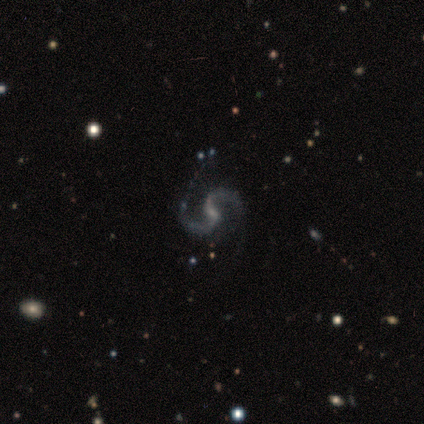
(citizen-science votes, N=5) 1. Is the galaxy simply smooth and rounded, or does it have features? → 80% featured or disk, 20% star or artifact, 0% smooth.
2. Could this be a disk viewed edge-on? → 75% no, 25% yes.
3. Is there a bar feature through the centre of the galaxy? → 67% weak, 33% no, 0% strong.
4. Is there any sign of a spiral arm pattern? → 100% yes, 0% no.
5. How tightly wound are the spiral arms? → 100% medium, 0% tight, 0% loose.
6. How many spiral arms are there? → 100% 2, 0% 1, 0% 3, 0% 4, 0% more than 4, 0% can't tell.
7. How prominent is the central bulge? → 33% moderate (tied), 33% small (tied), 33% none (tied), 0% dominant, 0% large.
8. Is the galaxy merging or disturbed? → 75% none, 25% major disturbance, 0% minor disturbance, 0% merger.